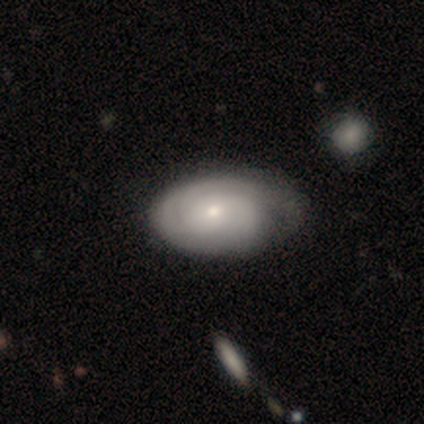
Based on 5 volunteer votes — Smooth or featured? 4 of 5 (80%) said featured or disk. Edge-on disk? 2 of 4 (50%, tied with no) said yes. Edge-on bulge? 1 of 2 (50%, tied with rounded) said none. Merging? 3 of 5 (60%) said minor disturbance.